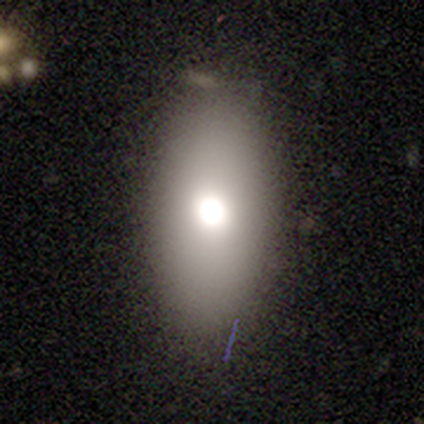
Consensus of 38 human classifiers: Volunteers were most divided on "smooth or featured": smooth: 63%, featured or disk: 24%, star or artifact: 13%. More confident: how rounded — in between (92%); merging — none (88%).